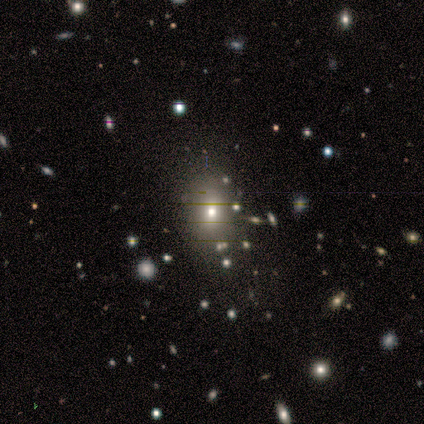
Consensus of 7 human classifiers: smooth-or-featured: smooth: 57% | star or artifact: 29% | featured or disk: 14%
  how-rounded: in between: 75% | round: 25% | cigar-shaped: 0%
  merging: none: 80% | major disturbance: 20% | minor disturbance: 0% | merger: 0%